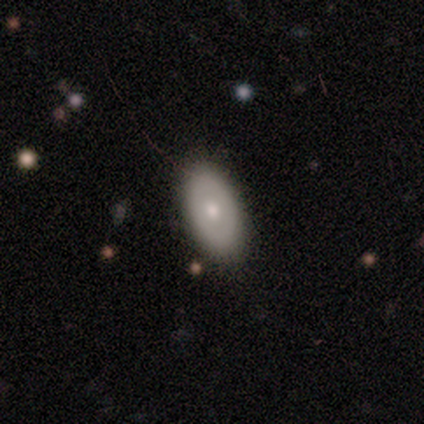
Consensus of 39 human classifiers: Morphology: type=smooth (59%); roundness=in between (96%); merging=none (65%).